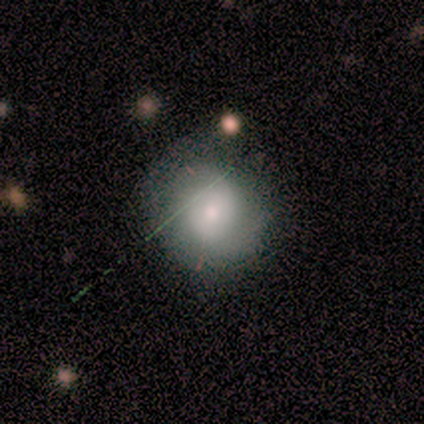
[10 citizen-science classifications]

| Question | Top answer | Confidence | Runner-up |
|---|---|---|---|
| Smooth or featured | smooth | 70% | featured or disk (30%) |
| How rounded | round | 86% | in between (14%) |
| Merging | none | 40% | major disturbance (30%) |